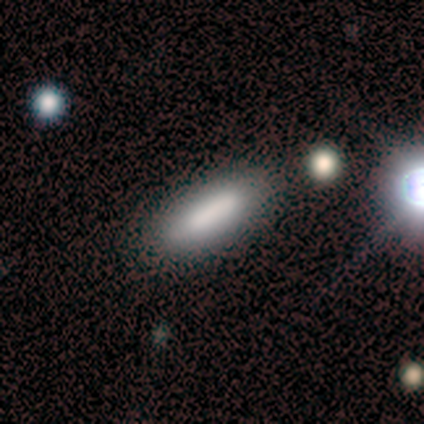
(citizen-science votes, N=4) smooth 100%, featured or disk 0%, star or artifact 0%. Down the decision tree: how rounded — cigar-shaped (75%); merging — none (100%).